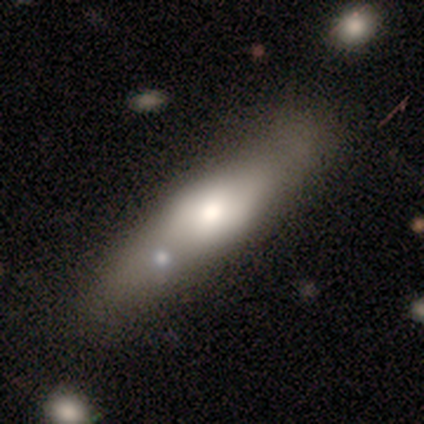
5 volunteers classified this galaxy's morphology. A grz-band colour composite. It shows a smooth galaxy with no disk features (60%) that is in between round and cigar-shaped (67%). Merging: none (40%, tied with minor disturbance).